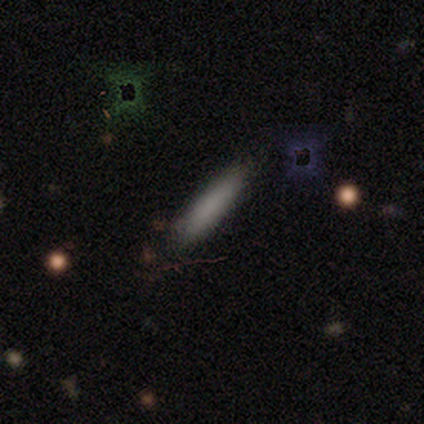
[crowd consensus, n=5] Smooth or featured? smooth (100%)
How rounded? cigar-shaped (100%)
Merging? none (60%)